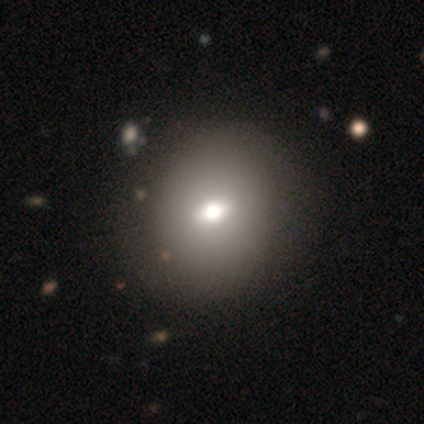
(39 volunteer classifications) Smooth or featured? 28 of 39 (72%) said smooth. How rounded? 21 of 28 (75%) said round. Merging? 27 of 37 (73%) said none.